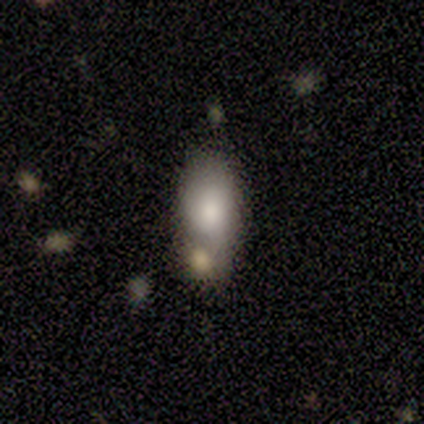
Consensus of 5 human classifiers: smooth-or-featured: smooth: 80% | featured or disk: 20% | star or artifact: 0%
  how-rounded: in between: 100% | round: 0% | cigar-shaped: 0%
  merging: none: 40% (tied) | minor disturbance: 40% (tied) | merger: 20% | major disturbance: 0%